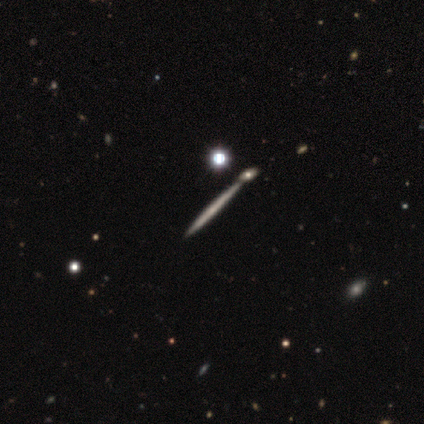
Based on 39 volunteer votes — A featured or disk galaxy (62%) viewed edge-on (100%) with no central bulge (96%).

Vote fractions:
- Smooth or featured? featured or disk: 62% / smooth: 28% / star or artifact: 10%
- Edge-on disk? yes: 100% / no: 0%
- Edge-on bulge? none: 96% / rounded: 4% / boxy: 0%
- Merging? none: 49% / merger: 26% / minor disturbance: 3% / major disturbance: 3%